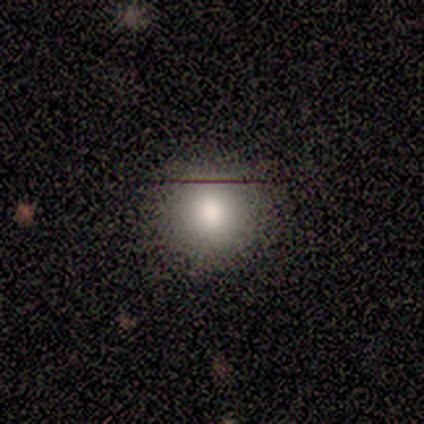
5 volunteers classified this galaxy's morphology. smooth 100%, featured or disk 0%, star or artifact 0%. Down the decision tree: how rounded — round (100%); merging — none (100%).